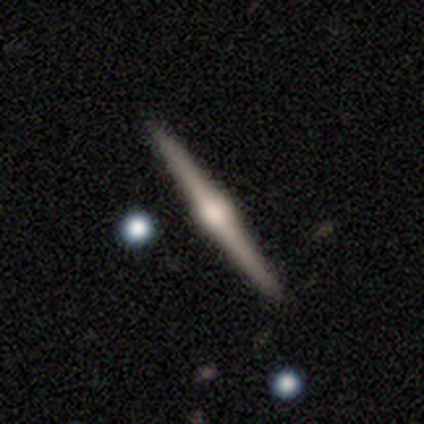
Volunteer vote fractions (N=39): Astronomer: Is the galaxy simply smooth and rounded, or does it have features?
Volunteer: featured or disk — 85%.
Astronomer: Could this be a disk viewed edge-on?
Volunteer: yes — 100%.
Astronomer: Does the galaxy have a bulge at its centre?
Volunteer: rounded — 91%.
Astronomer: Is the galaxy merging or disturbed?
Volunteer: none — 92%.